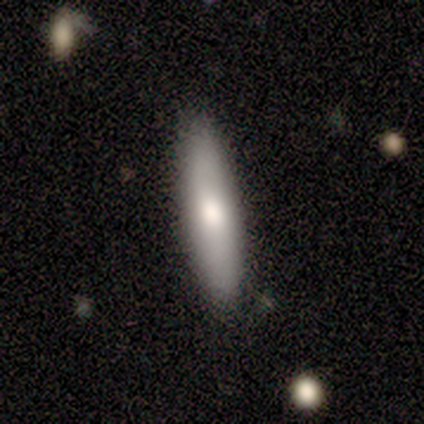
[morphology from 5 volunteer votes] smooth-or-featured: featured or disk: 60% | smooth: 40% | star or artifact: 0%
  disk-edge-on: yes: 100% | no: 0%
    edge-on-bulge: rounded: 67% | none: 33% | boxy: 0%
  merging: none: 100% | minor disturbance: 0% | major disturbance: 0% | merger: 0%